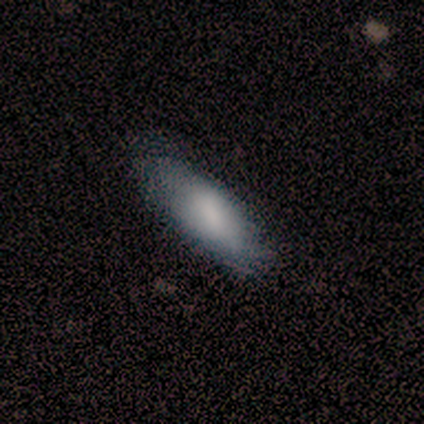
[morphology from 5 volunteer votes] Smooth or featured? smooth (80%)
How rounded? in between (50%, tied with cigar-shaped)
Merging? none (100%)